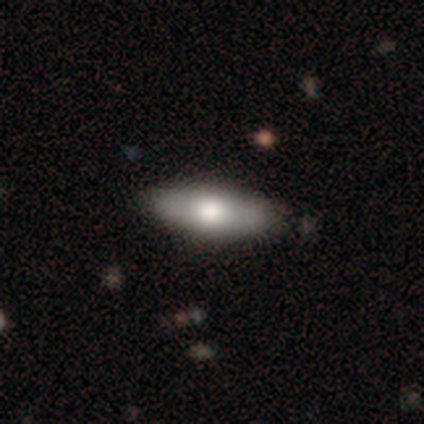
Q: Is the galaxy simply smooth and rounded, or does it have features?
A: smooth — 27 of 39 (69%).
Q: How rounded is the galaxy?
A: in between — 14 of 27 (52%).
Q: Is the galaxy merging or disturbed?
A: none — 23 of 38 (61%).